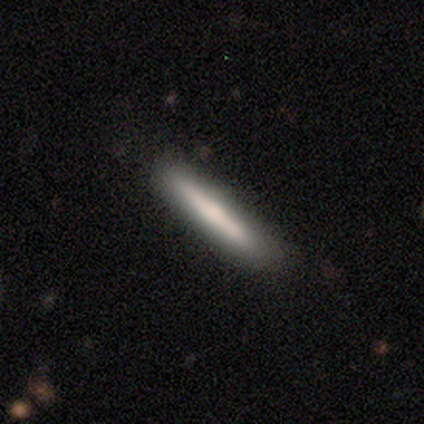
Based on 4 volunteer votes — Smooth or featured? 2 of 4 (50%, tied with featured or disk) said smooth. How rounded? 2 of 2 (100%) said cigar-shaped. Merging? 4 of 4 (100%) said none.